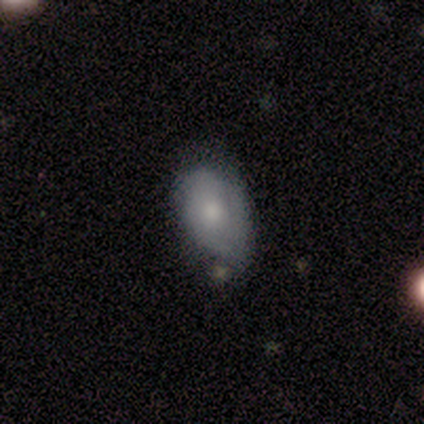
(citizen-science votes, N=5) Smooth or featured? 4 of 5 (80%) said smooth. How rounded? 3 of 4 (75%) said in between. Merging? 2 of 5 (40%, tied with minor disturbance) said none.